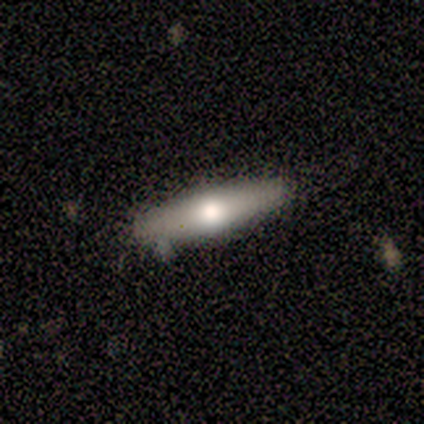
A smooth galaxy with no disk features (60%) that is in between round and cigar-shaped (67%).

Vote fractions:
- Smooth or featured? smooth: 60% / featured or disk: 40% / star or artifact: 0%
- How rounded? in between: 67% / cigar-shaped: 33% / round: 0%
- Merging? none: 60% / minor disturbance: 20% / major disturbance: 20% / merger: 0%